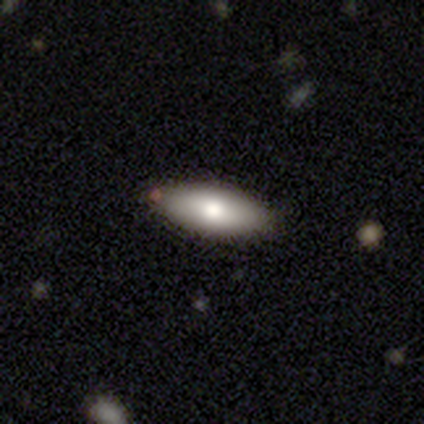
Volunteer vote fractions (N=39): Morphology: type=smooth (82%); roundness=in between (78%); merging=none (81%).